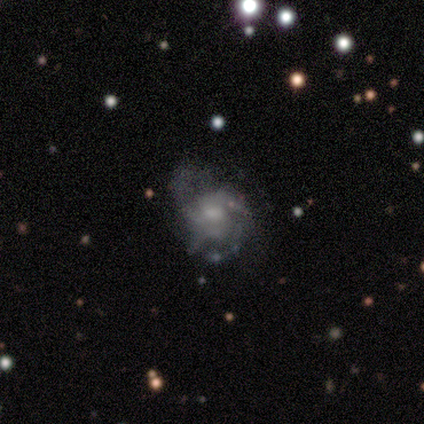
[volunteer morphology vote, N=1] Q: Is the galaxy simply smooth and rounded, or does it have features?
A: featured or disk — 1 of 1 (100%).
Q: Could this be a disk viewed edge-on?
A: no — 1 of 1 (100%).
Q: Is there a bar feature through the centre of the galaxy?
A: no — 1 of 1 (100%).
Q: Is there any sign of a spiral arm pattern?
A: yes — 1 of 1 (100%).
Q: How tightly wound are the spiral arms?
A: tight — 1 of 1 (100%).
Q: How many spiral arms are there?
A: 2 — 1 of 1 (100%).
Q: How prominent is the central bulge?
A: moderate — 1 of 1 (100%).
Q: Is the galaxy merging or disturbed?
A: merger — 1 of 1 (100%).